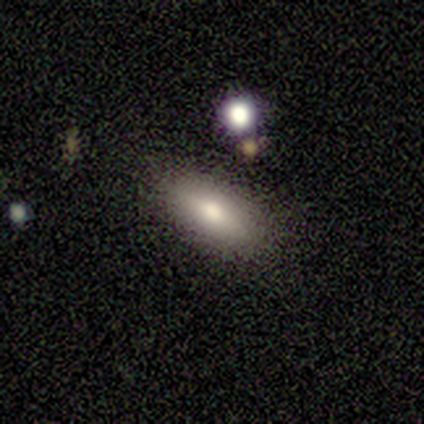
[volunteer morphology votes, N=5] Smooth or featured? smooth (80%)
How rounded? in between (100%)
Merging? none (60%)